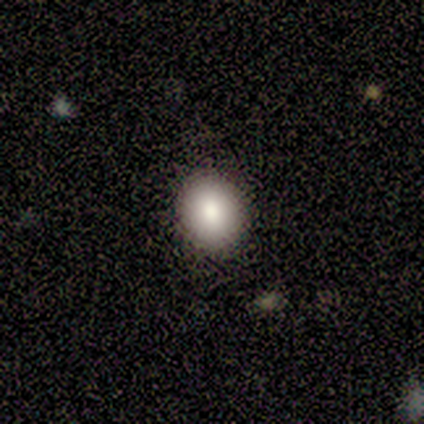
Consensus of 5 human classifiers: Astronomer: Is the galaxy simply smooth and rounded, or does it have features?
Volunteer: smooth — 80%.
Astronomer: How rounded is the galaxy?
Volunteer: in between — 75%.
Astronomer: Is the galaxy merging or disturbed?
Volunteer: none — 100%.